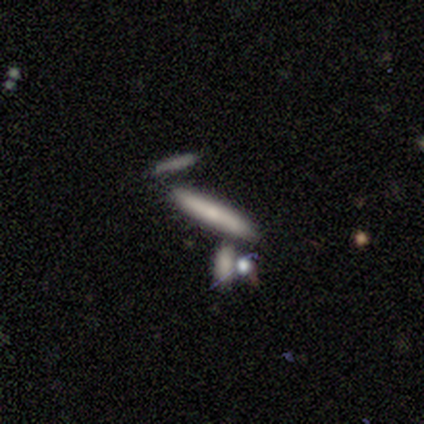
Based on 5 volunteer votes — Smooth or featured?
  - smooth: 60% *
  - featured or disk: 20%
  - star or artifact: 20%
How rounded?
  - cigar-shaped: 100% *
  - round: 0%
  - in between: 0%
Merging?
  - none: 50% * (tied)
  - merger: 50% * (tied)
  - minor disturbance: 0%
  - major disturbance: 0%